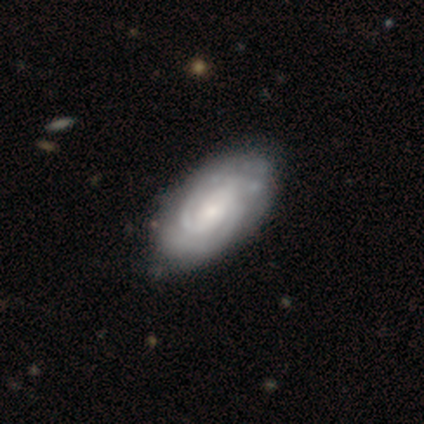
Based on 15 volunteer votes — Smooth or featured: featured or disk — 73% (smooth — 20%)
Edge-on disk: no — 91% (yes — 9%)
Bar: no — 50% (weak — 30%)
Spiral arms: yes — 100%
Spiral winding: tight — 60% (medium — 40%)
Spiral arm count: 2 — 50% (can't tell — 40%)
Bulge size: moderate — 60% (small — 20%)
Merging: none — 79% (minor disturbance — 14%)